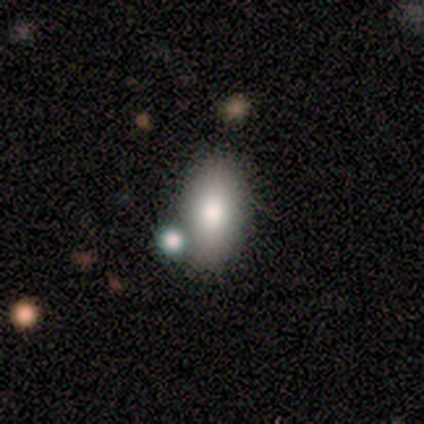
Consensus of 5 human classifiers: This is clearly a smooth galaxy (80%). How rounded: clearly in between (100%). Merging: likely none (60%).